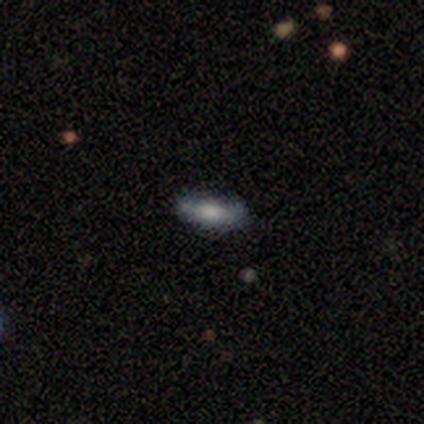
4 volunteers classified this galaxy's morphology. A smooth galaxy with no disk features (50%, tied with featured or disk) that is cigar-shaped (100%).

Vote fractions:
- Smooth or featured? smooth: 50% (tied) / featured or disk: 50% (tied) / star or artifact: 0%
- How rounded? cigar-shaped: 100% / round: 0% / in between: 0%
- Merging? none: 75% / minor disturbance: 25% / major disturbance: 0% / merger: 0%